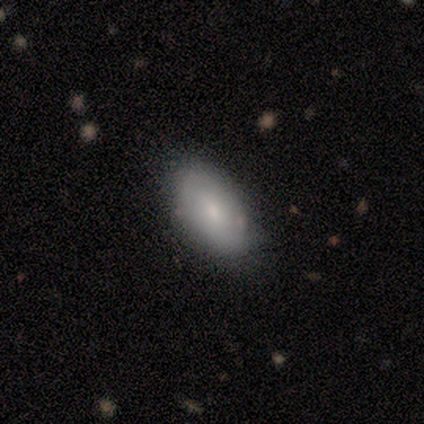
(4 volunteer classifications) Smooth or featured?
  - smooth: 75% *
  - featured or disk: 25%
  - star or artifact: 0%
How rounded?
  - in between: 100% *
  - round: 0%
  - cigar-shaped: 0%
Merging?
  - none: 100% *
  - minor disturbance: 0%
  - major disturbance: 0%
  - merger: 0%